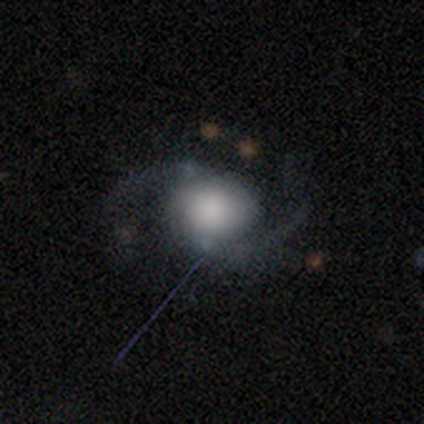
featured or disk 82%, smooth 12%, star or artifact 5%. Down the decision tree: edge-on disk — no (97%); bar — no (78%); spiral arms — yes (100%); spiral arm count — 2 (97%); spiral winding — loose (56%); bulge size — large (47%); merging — none (74%).